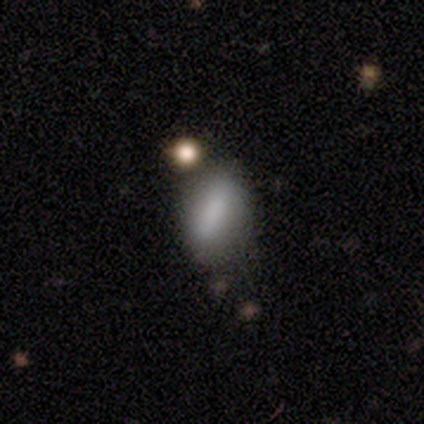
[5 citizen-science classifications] Smooth or featured? 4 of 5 (80%) said smooth. How rounded? 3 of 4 (75%) said in between. Merging? 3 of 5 (60%) said none.